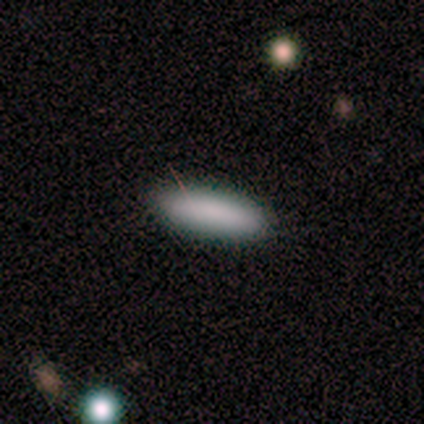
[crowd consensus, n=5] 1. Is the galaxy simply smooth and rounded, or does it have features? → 80% smooth, 20% featured or disk, 0% star or artifact.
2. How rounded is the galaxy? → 100% cigar-shaped, 0% round, 0% in between.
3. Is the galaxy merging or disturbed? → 100% none, 0% minor disturbance, 0% major disturbance, 0% merger.